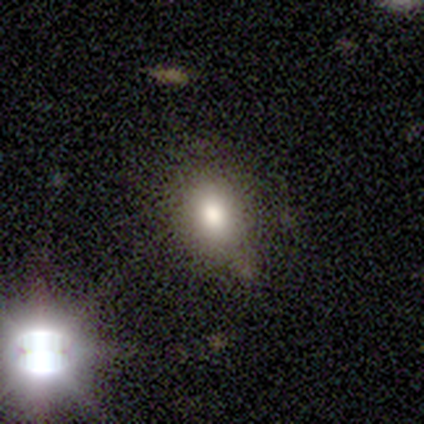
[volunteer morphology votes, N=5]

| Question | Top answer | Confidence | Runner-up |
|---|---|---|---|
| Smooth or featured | smooth | 60% | star or artifact (40%) |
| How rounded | in between | 100% | — |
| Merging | none | 100% | — |